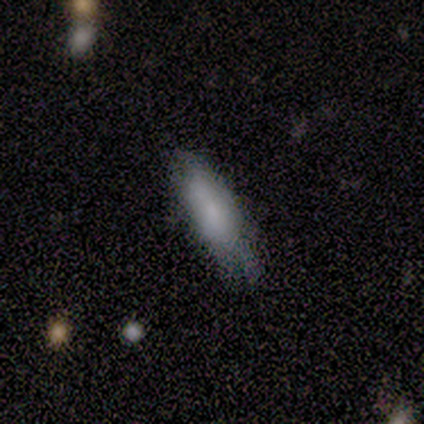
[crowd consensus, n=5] smooth_or_featured: smooth (p=1.00)
how_rounded: in between (p=0.80) [alt: cigar-shaped p=0.20]
merging: none (p=0.80) [alt: major disturbance p=0.20]